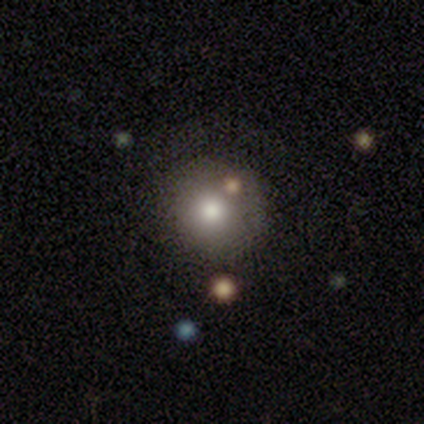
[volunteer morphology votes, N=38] smooth-or-featured: smooth: 58% | featured or disk: 24% | star or artifact: 18%
  how-rounded: round: 95% | in between: 5% | cigar-shaped: 0%
  merging: none: 65% | merger: 16% | major disturbance: 13% | minor disturbance: 6%